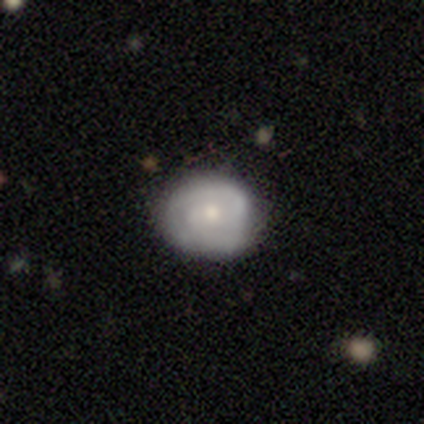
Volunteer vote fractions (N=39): This is likely a featured or disk galaxy (62%). It is clearly not viewed edge-on (100%). Bar: likely no (71%). Spiral arm pattern: clearly yes (83%). Spiral arm count: possibly 2 (50%). Spiral winding: likely tight (65%). Central bulge: possibly moderate (50%). Merging: likely none (77%).